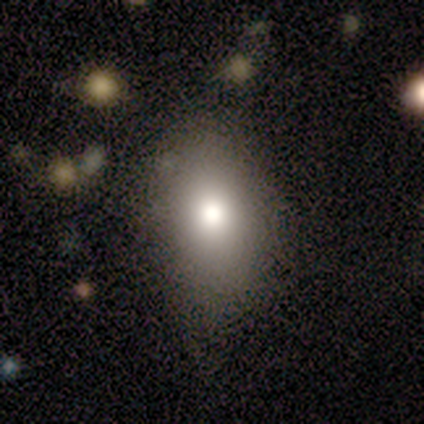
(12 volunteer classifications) Volunteers were most divided on "merging": none: 64%, minor disturbance: 27%, major disturbance: 9%, merger: 0%. More confident: how rounded — in between (88%); smooth or featured — smooth (67%).